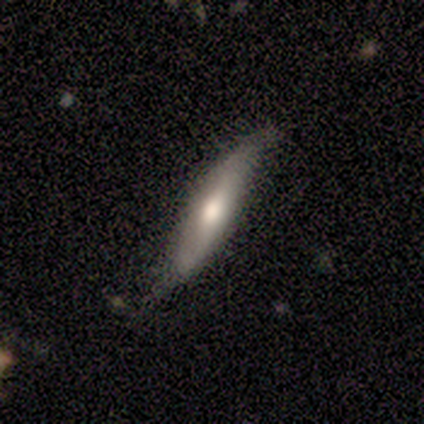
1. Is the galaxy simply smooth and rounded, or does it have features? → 50% smooth (tied), 50% featured or disk (tied), 0% star or artifact.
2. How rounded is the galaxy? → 100% cigar-shaped, 0% round, 0% in between.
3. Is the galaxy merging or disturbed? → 100% none, 0% minor disturbance, 0% major disturbance, 0% merger.